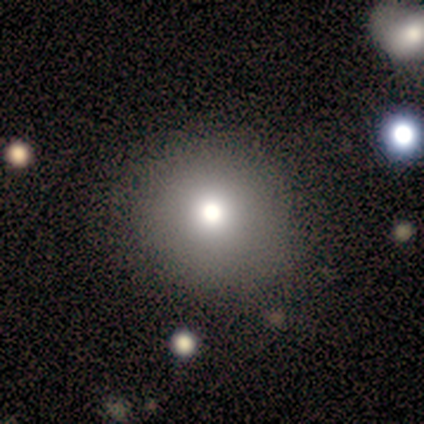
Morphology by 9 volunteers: A smooth galaxy with no disk features (56%) that is round (100%).

Vote fractions:
- Smooth or featured? smooth: 56% / star or artifact: 44% / featured or disk: 0%
- How rounded? round: 100% / in between: 0% / cigar-shaped: 0%
- Merging? none: 100% / minor disturbance: 0% / major disturbance: 0% / merger: 0%